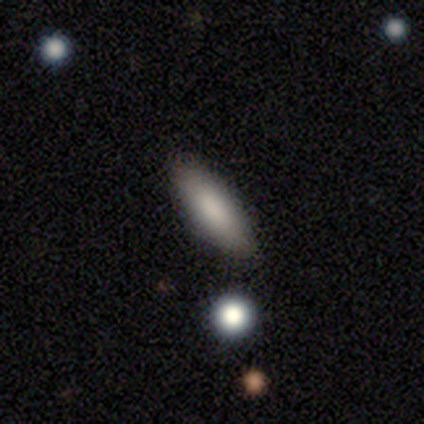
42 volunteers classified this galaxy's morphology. Smooth or featured? smooth (93%)
How rounded? in between (69%)
Merging? none (51%)